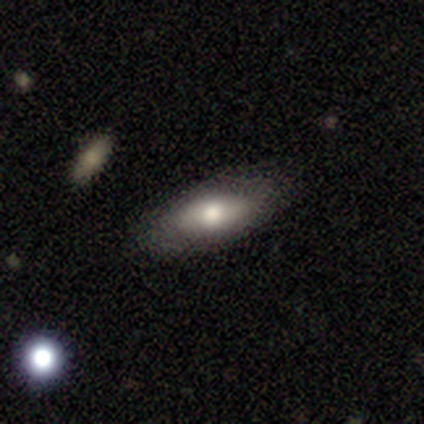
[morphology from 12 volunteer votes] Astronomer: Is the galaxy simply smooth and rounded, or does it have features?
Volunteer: featured or disk — 58% (runner-up: smooth, 42%).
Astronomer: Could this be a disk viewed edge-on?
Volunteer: no — 71%.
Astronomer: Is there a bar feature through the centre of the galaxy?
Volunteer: no — 80%.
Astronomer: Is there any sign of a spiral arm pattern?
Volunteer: no — 80%.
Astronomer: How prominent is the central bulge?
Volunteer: moderate — 80%.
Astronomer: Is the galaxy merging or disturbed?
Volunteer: none — 75%.